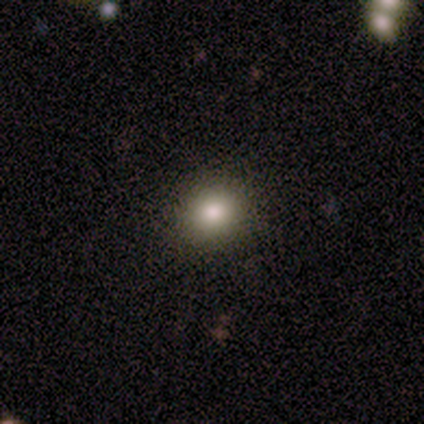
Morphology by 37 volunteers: smooth_or_featured: smooth (p=0.68) [alt: star or artifact p=0.22]
how_rounded: round (p=0.88) [alt: in between p=0.12]
merging: none (p=0.93) [alt: minor disturbance p=0.07]